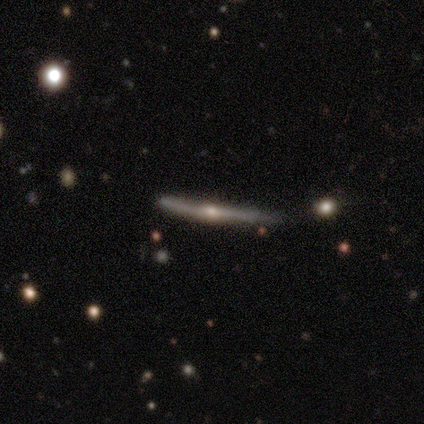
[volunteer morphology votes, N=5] featured or disk 100%, smooth 0%, star or artifact 0%. Down the decision tree: edge-on disk — yes (80%); edge-on bulge — rounded (100%); merging — none (80%).